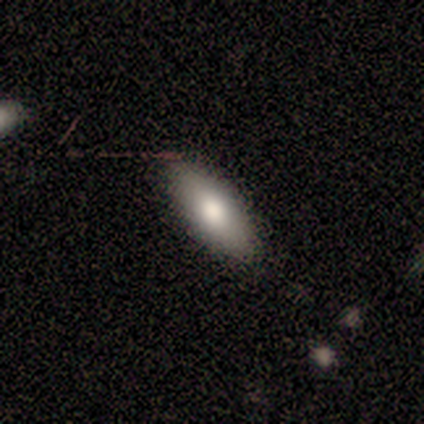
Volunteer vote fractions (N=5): Smooth or featured?
  - smooth: 80% *
  - star or artifact: 20%
  - featured or disk: 0%
How rounded?
  - in between: 75% *
  - cigar-shaped: 25%
  - round: 0%
Merging?
  - none: 100% *
  - minor disturbance: 0%
  - major disturbance: 0%
  - merger: 0%